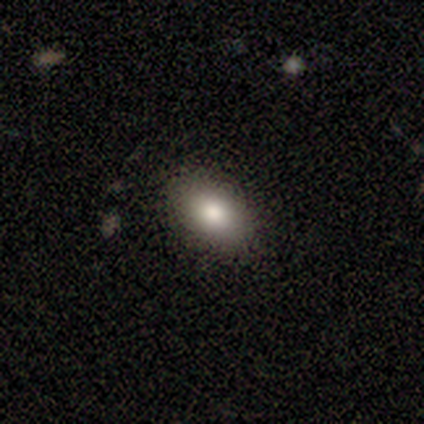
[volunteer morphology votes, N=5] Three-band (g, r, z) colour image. It shows a smooth galaxy with no disk features (80%) that is in between round and cigar-shaped (75%). Merging: none (80%).